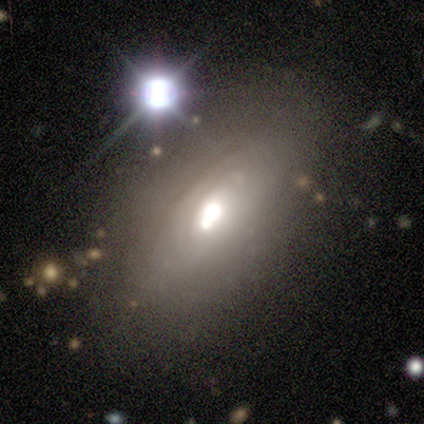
Q: Smooth or featured?
A: featured or disk (68%); runner-up: smooth (25%)
Q: Edge-on disk?
A: no (89%); runner-up: yes (11%)
Q: Bar?
A: no (88%); runner-up: weak (10%)
Q: Spiral arms?
A: no (69%); runner-up: yes (31%)
Q: Bulge size?
A: large (52%); runner-up: moderate (33%)
Q: Merging?
A: none (64%); runner-up: minor disturbance (20%)